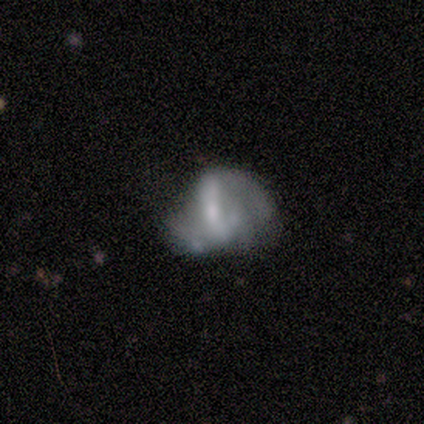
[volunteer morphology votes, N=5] This is clearly a featured or disk galaxy (80%). It is clearly not viewed edge-on (100%). Bar: possibly strong (50%, tied with weak). Spiral arm pattern: possibly yes (50%, tied with no). Spiral arm count: clearly 2 (100%). Spiral winding: clearly medium (100%). Central bulge: possibly large (50%, tied with moderate). Merging: likely none (60%).